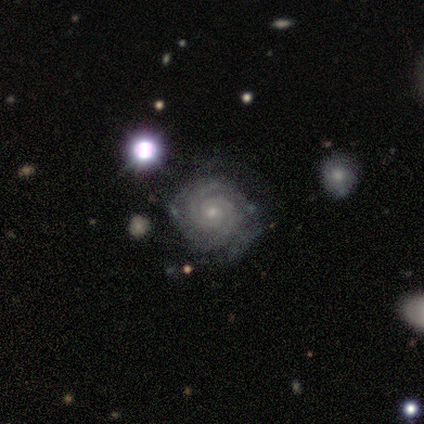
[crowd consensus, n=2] This appears to be a featured or disk galaxy (100%) with no bar (100%), 2 (100%) tight (100%) spiral arms (100%) and a small central bulge (100%). Merging: none (50%, tied with minor disturbance).